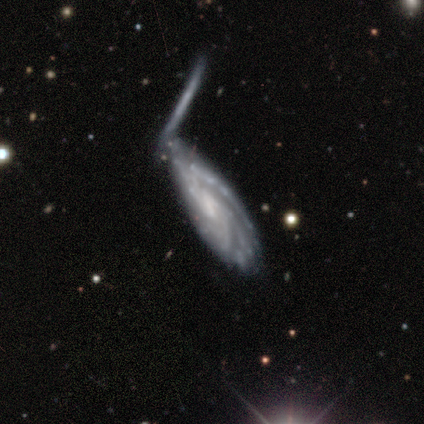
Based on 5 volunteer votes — Volunteers were most divided on "bar": weak: 50%, strong: 25%, no: 25%. More confident: edge-on disk — no (100%); spiral arms — yes (100%); smooth or featured — featured or disk (80%); merging — none (80%); spiral winding — tight (75%); bulge size — small (75%); spiral arm count — can't tell (50%).